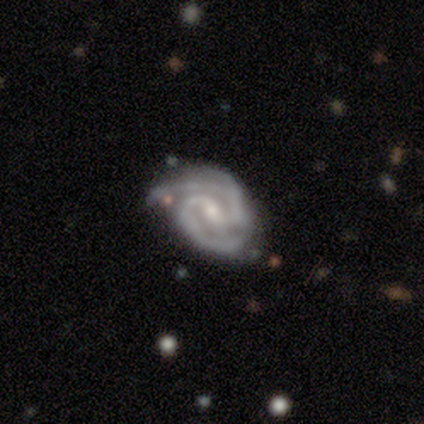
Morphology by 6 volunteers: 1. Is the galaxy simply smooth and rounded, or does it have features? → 100% featured or disk, 0% smooth, 0% star or artifact.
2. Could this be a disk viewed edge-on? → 100% no, 0% yes.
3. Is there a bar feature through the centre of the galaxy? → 50% weak, 33% no, 17% strong.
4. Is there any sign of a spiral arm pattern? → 100% yes, 0% no.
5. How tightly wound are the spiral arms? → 67% tight, 33% medium, 0% loose.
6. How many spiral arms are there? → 50% 3, 33% 2, 17% 4, 0% 1, 0% more than 4, 0% can't tell.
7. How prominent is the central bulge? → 67% moderate, 33% small, 0% dominant, 0% large, 0% none.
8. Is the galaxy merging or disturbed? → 83% none, 17% major disturbance, 0% minor disturbance, 0% merger.